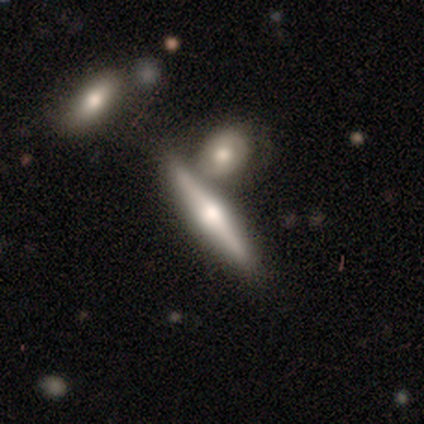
Smooth or featured: featured or disk — 65% (smooth — 29%)
Edge-on disk: yes — 100%
Edge-on bulge: rounded — 90% (none — 6%)
Merging: none — 67% (merger — 24%)